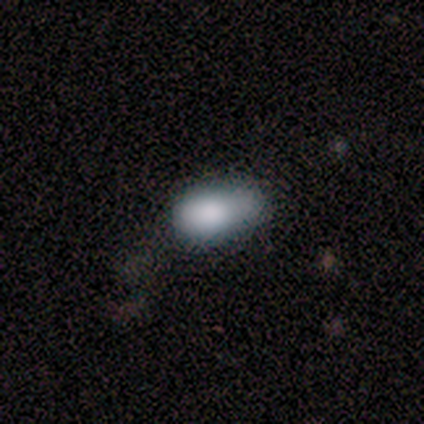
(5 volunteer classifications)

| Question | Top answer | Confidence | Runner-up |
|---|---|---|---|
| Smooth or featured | smooth | 80% | star or artifact (20%) |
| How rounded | in between | 100% | — |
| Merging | none | 50% | minor disturbance (25%) |